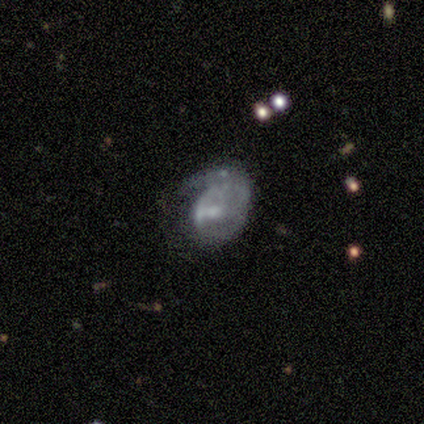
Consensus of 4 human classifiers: smooth_or_featured: smooth (p=0.50) [tied with: featured or disk p=0.50]
how_rounded: in between (p=1.00)
merging: major disturbance (p=0.75) [alt: minor disturbance p=0.25]